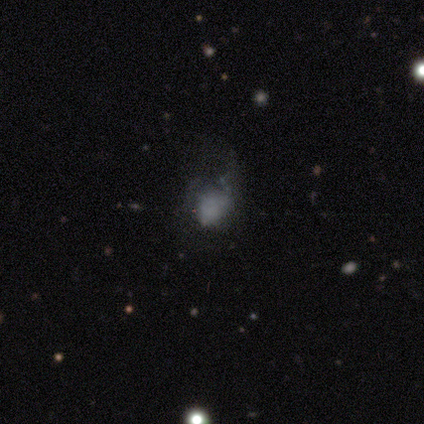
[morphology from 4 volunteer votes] type=featured or disk (50%); edge-on=no (100%); bar=no (100%); spiral arms=no (100%); bulge=none (100%); merging=minor disturbance (100%).